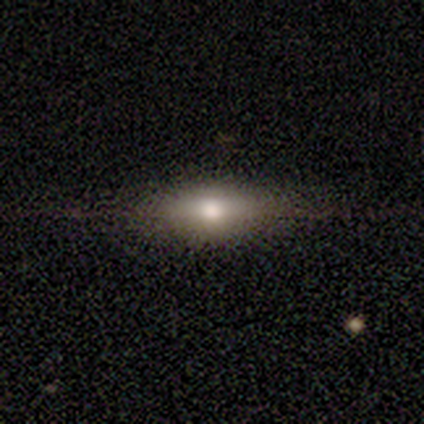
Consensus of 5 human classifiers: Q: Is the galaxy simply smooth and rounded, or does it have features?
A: smooth — 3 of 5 (60%).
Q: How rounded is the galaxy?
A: cigar-shaped — 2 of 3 (67%).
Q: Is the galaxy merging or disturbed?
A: none — 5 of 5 (100%).